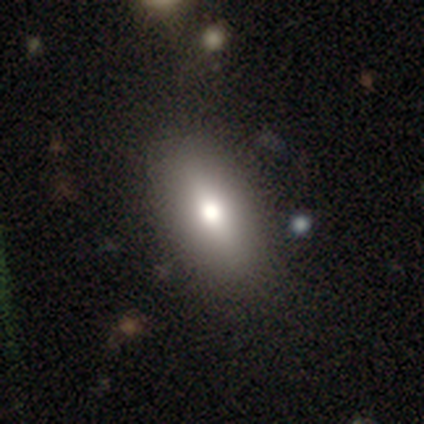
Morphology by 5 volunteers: Q: Smooth or featured?
A: smooth (60%); runner-up: featured or disk (40%)
Q: How rounded?
A: in between (67%); runner-up: cigar-shaped (33%)
Q: Merging?
A: none (80%); runner-up: minor disturbance (20%)